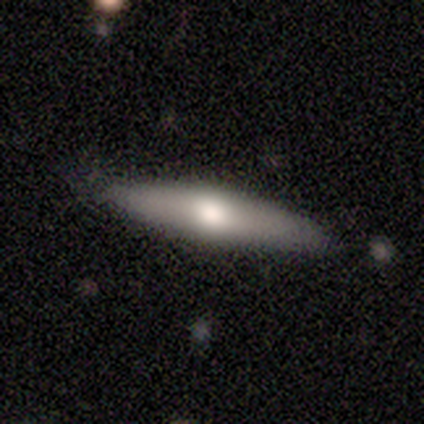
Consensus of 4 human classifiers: A smooth galaxy with no disk features (50%, tied with featured or disk) that is cigar-shaped (100%). Merging: none (75%).